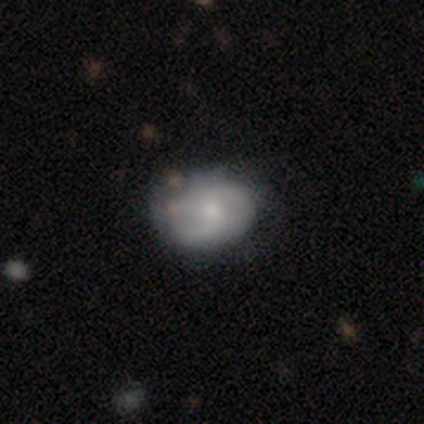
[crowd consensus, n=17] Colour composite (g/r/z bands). It shows a featured or disk galaxy (65%) with no bar (82%), tight (44%) spiral arms (82%) and a moderate central bulge (73%). Merging: none (47%).